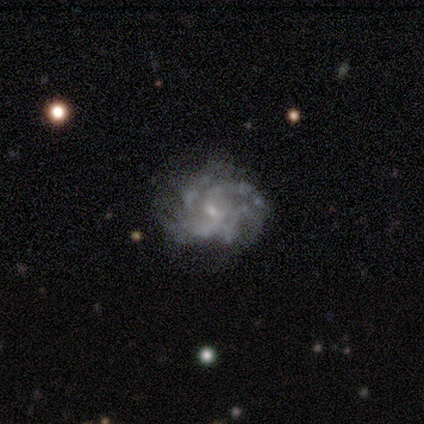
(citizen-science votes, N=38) Smooth or featured? featured or disk (92%)
Edge-on disk? no (100%)
Bar? weak (51%)
Spiral arms? yes (86%)
Spiral winding? tight (73%)
Spiral arm count? can't tell (53%)
Bulge size? small (86%)
Merging? none (67%)